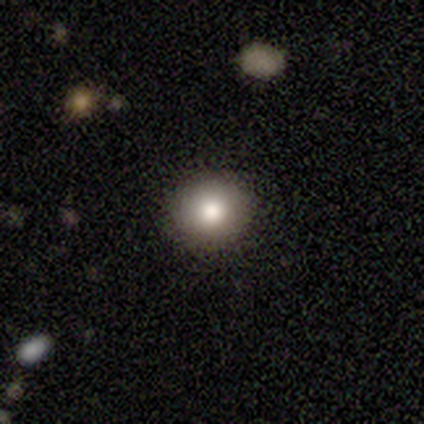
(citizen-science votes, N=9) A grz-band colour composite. It shows a smooth galaxy with no disk features (100%) that is round (67%). Merging: none (89%).